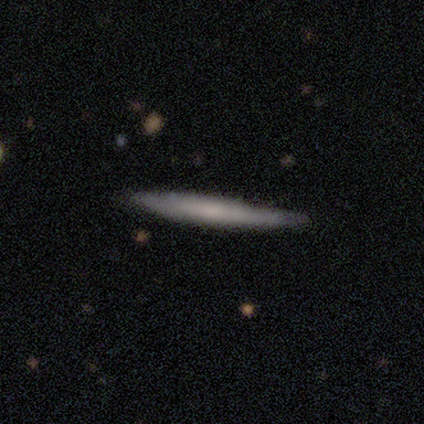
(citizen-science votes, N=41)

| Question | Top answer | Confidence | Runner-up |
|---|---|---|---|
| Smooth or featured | featured or disk | 59% | smooth (41%) |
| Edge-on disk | yes | 92% | no (8%) |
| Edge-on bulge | none | 73% | boxy (18%) |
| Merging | none | 46% | minor disturbance (15%) |